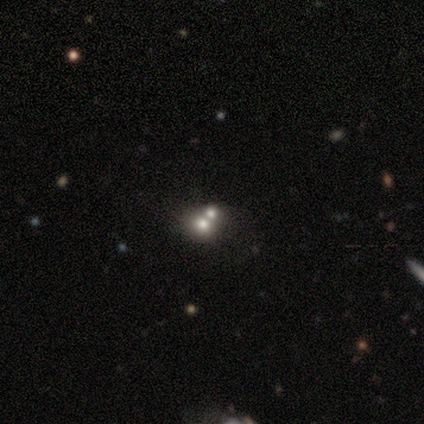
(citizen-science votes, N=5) smooth_or_featured: featured or disk (p=0.60) [alt: star or artifact p=0.40]
disk_edge_on: no (p=1.00)
bar: no (p=0.67) [alt: strong p=0.33]
has_spiral_arms: no (p=1.00)
bulge_size: dominant (p=0.33) [tied with: large p=0.33, small p=0.33]
merging: merger (p=1.00)